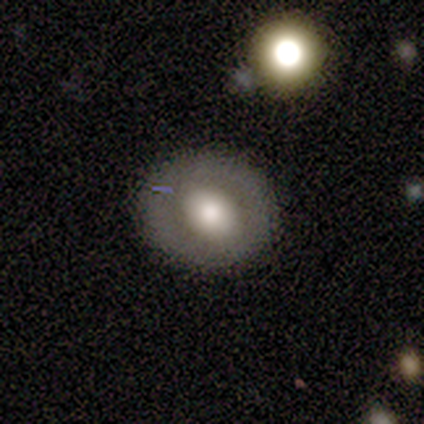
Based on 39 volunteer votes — smooth-or-featured: smooth: 56% | featured or disk: 38% | star or artifact: 5%
  how-rounded: round: 73% | in between: 27% | cigar-shaped: 0%
  merging: none: 81% | minor disturbance: 16% | major disturbance: 3% | merger: 0%